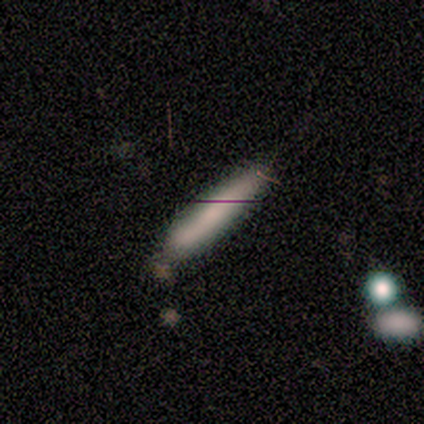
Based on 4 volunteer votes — star or artifact 75%, smooth 25%, featured or disk 0%.